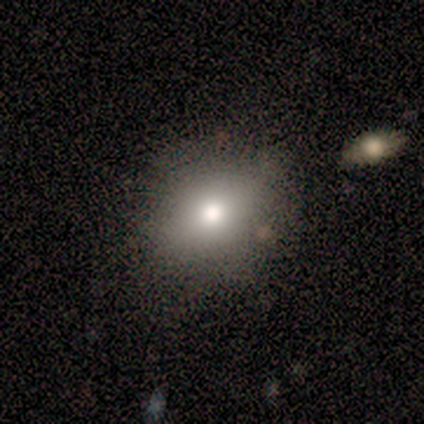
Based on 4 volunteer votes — smooth-or-featured: smooth: 100% | featured or disk: 0% | star or artifact: 0%
  how-rounded: round: 50% (tied) | in between: 50% (tied) | cigar-shaped: 0%
  merging: none: 75% | major disturbance: 25% | minor disturbance: 0% | merger: 0%